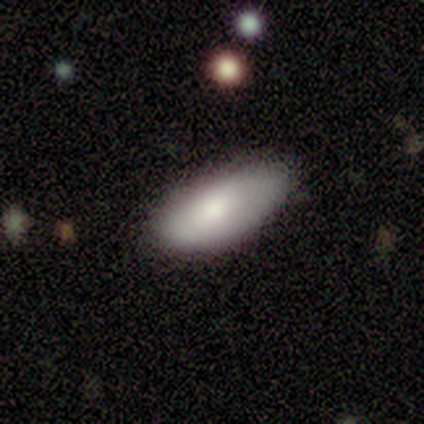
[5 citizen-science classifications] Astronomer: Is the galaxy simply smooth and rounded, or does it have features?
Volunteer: smooth — 60%.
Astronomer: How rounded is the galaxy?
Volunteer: in between — 100%.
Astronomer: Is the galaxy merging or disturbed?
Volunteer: none — 50%, tied with minor disturbance at 50%.